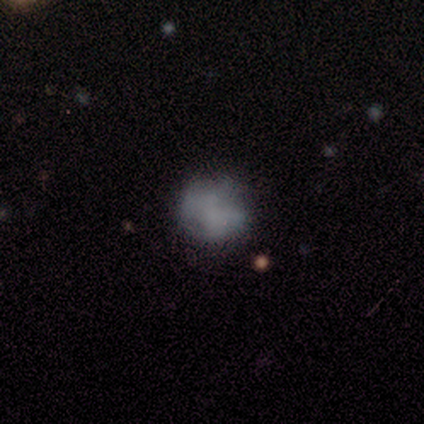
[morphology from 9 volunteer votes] A smooth galaxy with no disk features (56%) that is round (80%).

Vote fractions:
- Smooth or featured? smooth: 56% / featured or disk: 33% / star or artifact: 11%
- How rounded? round: 80% / in between: 20% / cigar-shaped: 0%
- Merging? none: 75% / minor disturbance: 12% / major disturbance: 12% / merger: 0%